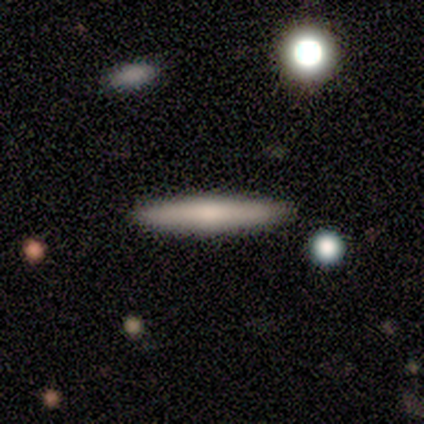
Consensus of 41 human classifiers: Smooth or featured? smooth (63%)
How rounded? cigar-shaped (96%)
Merging? none (90%)